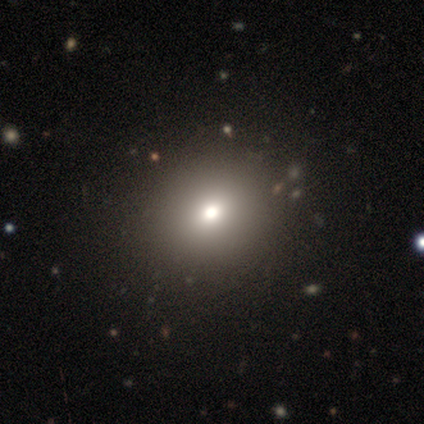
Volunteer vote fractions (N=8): smooth 100%, featured or disk 0%, star or artifact 0%. Down the decision tree: how rounded — round (88%); merging — none (38%).